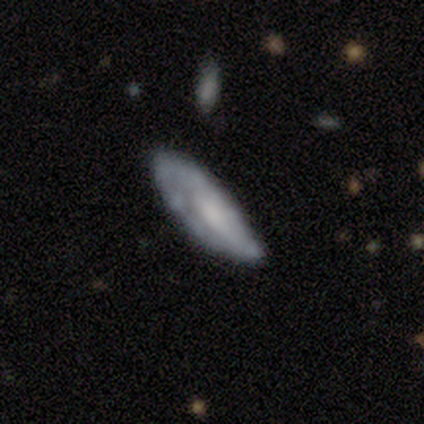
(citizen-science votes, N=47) This appears to be a smooth galaxy with no disk features (47%, tied with featured or disk) that is in between round and cigar-shaped (59%). Merging: none (52%).